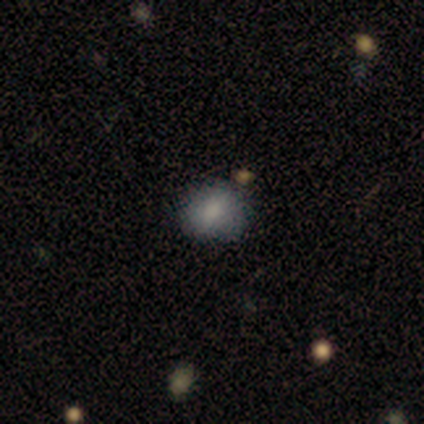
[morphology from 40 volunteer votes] This appears to be a smooth galaxy with no disk features (80%) that is in between round and cigar-shaped (56%). Merging: none (77%).